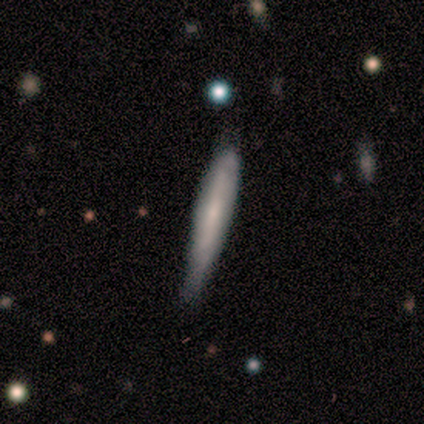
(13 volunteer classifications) Smooth or featured? 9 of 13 (69%) said smooth. How rounded? 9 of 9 (100%) said cigar-shaped. Merging? 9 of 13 (69%) said none.